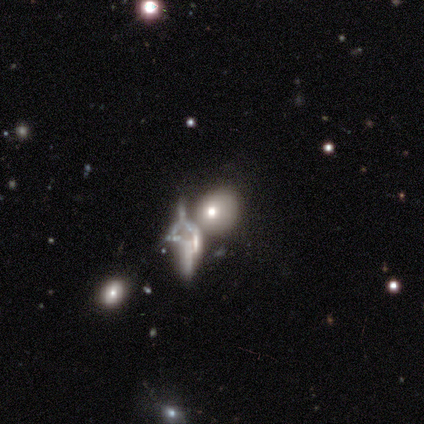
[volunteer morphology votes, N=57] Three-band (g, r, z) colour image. It shows a featured or disk galaxy (39%) with no bar (100%), no spiral arms (100%) and a moderate central bulge (78%). Merging: merger (47%).